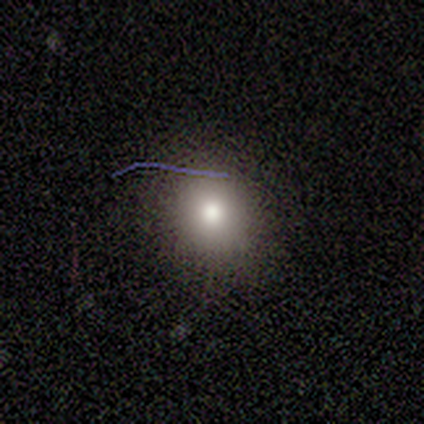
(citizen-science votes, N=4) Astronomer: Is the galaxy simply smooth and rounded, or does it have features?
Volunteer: smooth — 100%.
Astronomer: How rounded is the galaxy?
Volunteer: round — 75%.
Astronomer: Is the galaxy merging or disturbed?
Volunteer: none — 75%.